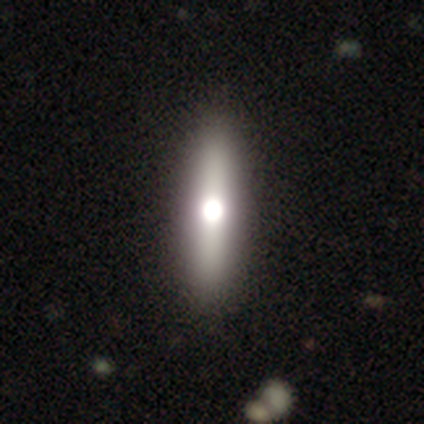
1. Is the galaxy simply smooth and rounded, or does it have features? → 54% smooth, 44% featured or disk, 3% star or artifact.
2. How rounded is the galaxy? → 81% cigar-shaped, 19% in between, 0% round.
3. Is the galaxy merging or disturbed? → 66% none, 5% minor disturbance, 3% major disturbance, 0% merger.